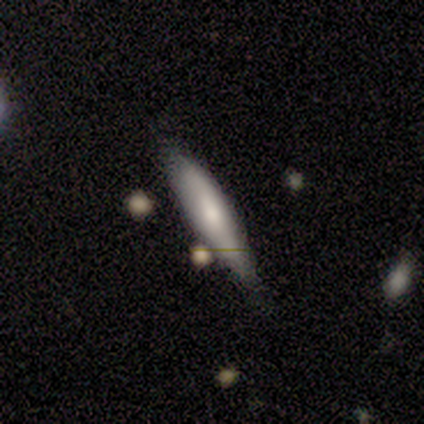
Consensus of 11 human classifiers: smooth_or_featured: smooth (p=0.73) [alt: featured or disk p=0.18]
how_rounded: cigar-shaped (p=0.75) [alt: in between p=0.25]
merging: none (p=0.70) [alt: minor disturbance p=0.30]